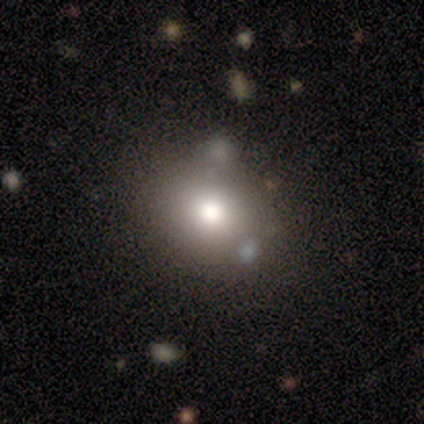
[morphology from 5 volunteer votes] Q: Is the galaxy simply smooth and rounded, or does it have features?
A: smooth — 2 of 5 (40%, tied with star or artifact).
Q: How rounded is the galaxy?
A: round — 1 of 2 (50%, tied with in between).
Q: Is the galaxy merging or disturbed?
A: none — 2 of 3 (67%).